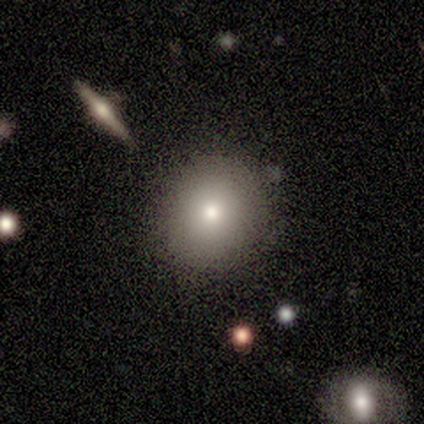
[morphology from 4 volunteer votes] Volunteers were most divided on "smooth or featured": smooth: 75%, featured or disk: 25%, star or artifact: 0%. More confident: how rounded — round (100%); merging — none (100%).